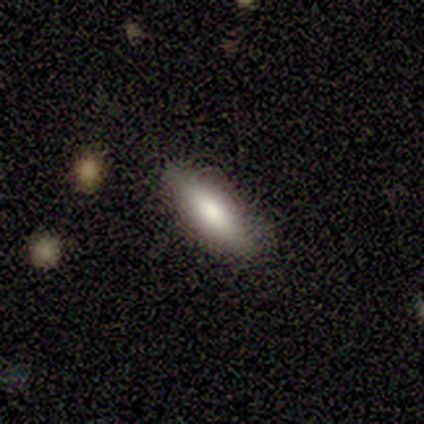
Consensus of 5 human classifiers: Smooth or featured: smooth — 100%
How rounded: cigar-shaped — 60% (in between — 40%)
Merging: none — 80% (minor disturbance — 20%)